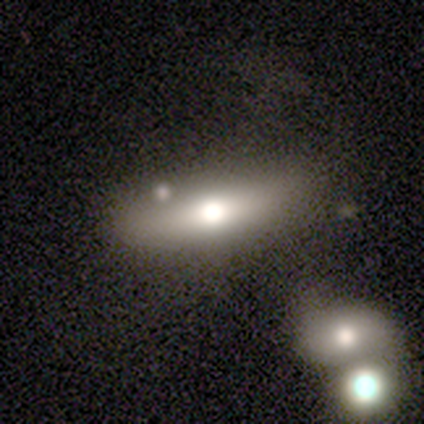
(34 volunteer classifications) This is possibly a smooth galaxy (59%). How rounded: possibly in between (50%). Merging: possibly none (52%).